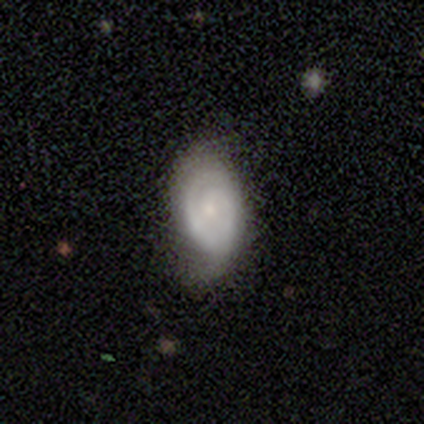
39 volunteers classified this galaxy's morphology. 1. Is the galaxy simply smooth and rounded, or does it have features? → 74% featured or disk, 23% smooth, 3% star or artifact.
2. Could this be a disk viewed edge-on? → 97% no, 3% yes.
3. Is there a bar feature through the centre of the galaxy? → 61% no, 36% weak, 4% strong.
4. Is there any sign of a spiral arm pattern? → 82% yes, 18% no.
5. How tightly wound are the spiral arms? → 74% tight, 22% medium, 4% loose.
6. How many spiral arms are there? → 61% 2, 22% 1, 17% can't tell, 0% 3, 0% 4, 0% more than 4.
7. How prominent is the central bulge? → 71% small, 11% moderate, 11% none, 7% large, 0% dominant.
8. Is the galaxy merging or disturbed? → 68% none, 26% minor disturbance, 5% major disturbance, 0% merger.